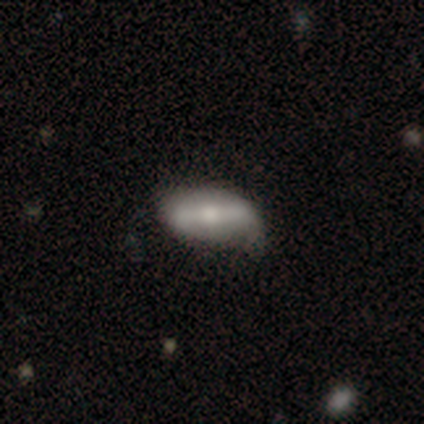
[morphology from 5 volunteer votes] Smooth or featured? 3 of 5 (60%) said smooth. How rounded? 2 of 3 (67%) said in between. Merging? 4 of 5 (80%) said none.